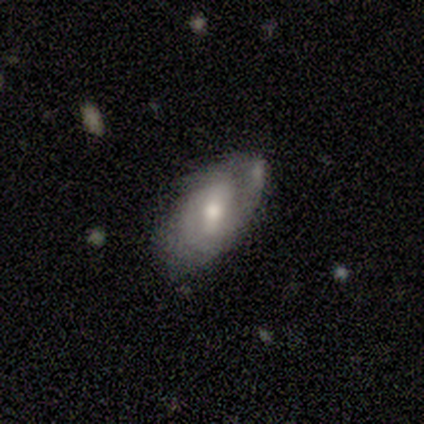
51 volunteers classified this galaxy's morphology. Q: Smooth or featured?
A: featured or disk (61%); runner-up: smooth (33%)
Q: Edge-on disk?
A: no (97%); runner-up: yes (3%)
Q: Bar?
A: weak (73%); runner-up: no (20%)
Q: Spiral arms?
A: yes (63%); runner-up: no (37%)
Q: Spiral winding?
A: medium (53%); runner-up: tight (42%)
Q: Spiral arm count?
A: 2 (47%); runner-up: can't tell (26%)
Q: Bulge size?
A: moderate (73%); runner-up: small (23%)
Q: Merging?
A: none (42%); tied with: minor disturbance (42%)